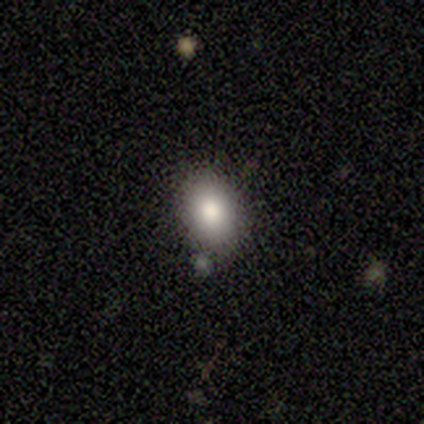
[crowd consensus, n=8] smooth 100%, featured or disk 0%, star or artifact 0%. Down the decision tree: how rounded — in between (88%); merging — none (75%).